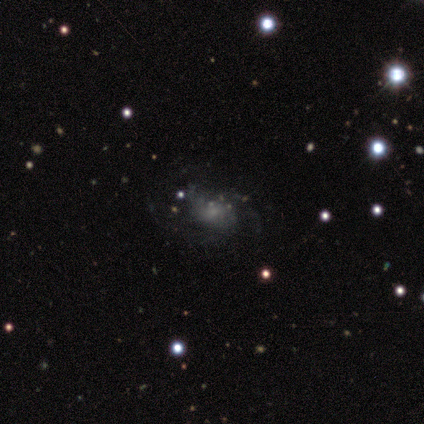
Smooth or featured? smooth (50%, tied with featured or disk)
How rounded? in between (100%)
Merging? minor disturbance (100%)